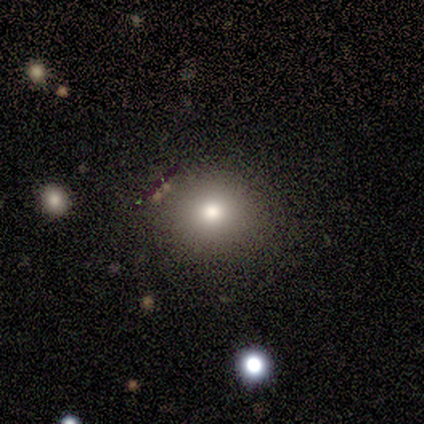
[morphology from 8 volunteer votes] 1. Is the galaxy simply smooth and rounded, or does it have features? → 75% smooth, 12% featured or disk, 12% star or artifact.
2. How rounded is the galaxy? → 83% round, 17% in between, 0% cigar-shaped.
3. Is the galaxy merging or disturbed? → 71% none, 29% minor disturbance, 0% major disturbance, 0% merger.